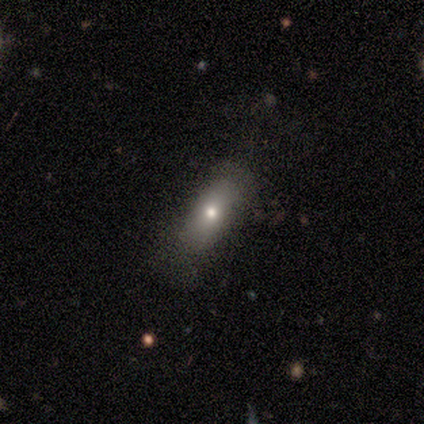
smooth_or_featured: smooth (p=0.40) [tied with: featured or disk p=0.40]
how_rounded: in between (p=0.50) [tied with: cigar-shaped p=0.50]
merging: none (p=0.75) [alt: major disturbance p=0.25]